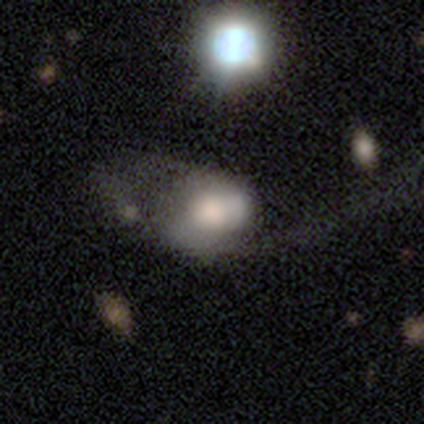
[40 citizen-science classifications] A smooth galaxy with no disk features (52%) that is in between round and cigar-shaped (62%). Merging: major disturbance (44%).